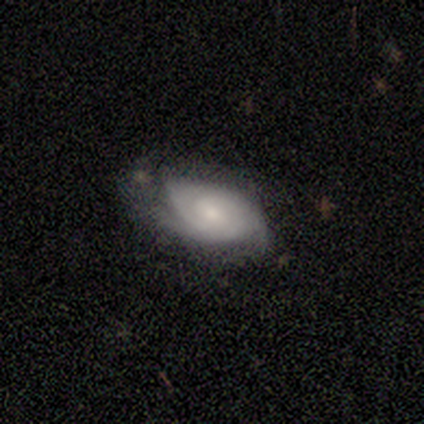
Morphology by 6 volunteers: Q: Smooth or featured?
A: featured or disk (67%); runner-up: smooth (33%)
Q: Edge-on disk?
A: no (100%)
Q: Bar?
A: weak (50%); tied with: no (50%)
Q: Spiral arms?
A: yes (100%)
Q: Spiral winding?
A: tight (75%); runner-up: medium (25%)
Q: Spiral arm count?
A: 2 (75%); runner-up: 3 (25%)
Q: Bulge size?
A: moderate (50%); tied with: small (50%)
Q: Merging?
A: none (50%); tied with: minor disturbance (50%)